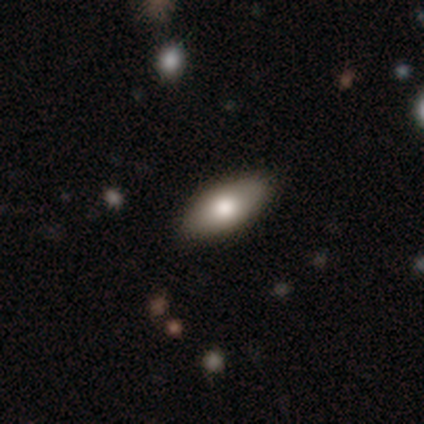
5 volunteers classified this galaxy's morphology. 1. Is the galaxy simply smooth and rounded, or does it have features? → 80% smooth, 20% featured or disk, 0% star or artifact.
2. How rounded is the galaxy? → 100% in between, 0% round, 0% cigar-shaped.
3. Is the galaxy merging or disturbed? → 80% none, 20% minor disturbance, 0% major disturbance, 0% merger.